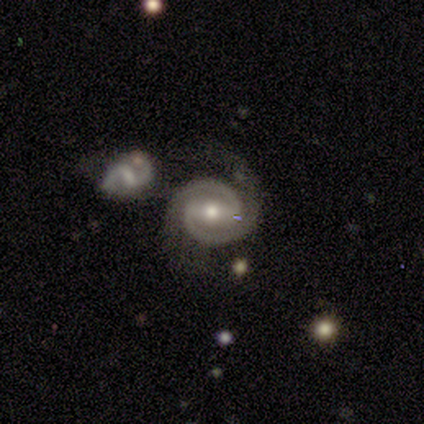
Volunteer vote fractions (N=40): Smooth or featured? 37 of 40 (92%) said featured or disk. Edge-on disk? 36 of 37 (97%) said no. Bar? 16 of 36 (44%) said strong. Spiral arms? 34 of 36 (94%) said yes. Spiral winding? 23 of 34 (68%) said tight. Spiral arm count? 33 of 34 (97%) said 2. Bulge size? 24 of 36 (67%) said moderate. Merging? 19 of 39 (49%) said none.